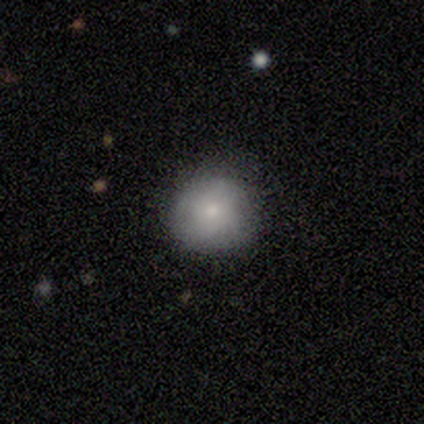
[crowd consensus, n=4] smooth_or_featured: smooth (p=0.50) [tied with: star or artifact p=0.50]
how_rounded: round (p=1.00)
merging: none (p=0.50) [tied with: minor disturbance p=0.50]